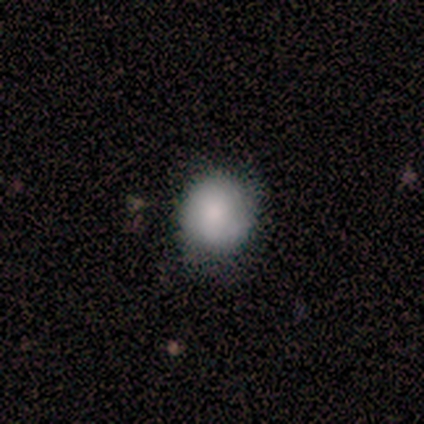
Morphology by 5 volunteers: This is likely a smooth galaxy (60%). How rounded: clearly round (100%). Merging: clearly none (80%).